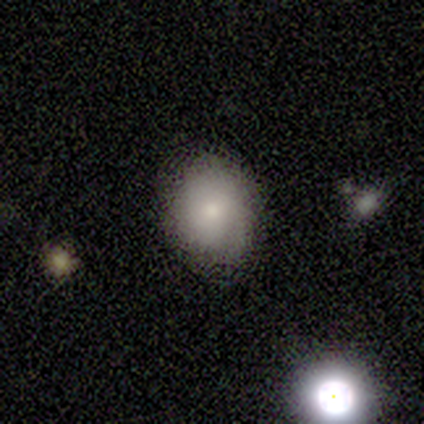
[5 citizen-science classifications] Q: Smooth or featured?
A: smooth (80%); runner-up: featured or disk (20%)
Q: How rounded?
A: round (50%); tied with: in between (50%)
Q: Merging?
A: none (40%); tied with: minor disturbance (40%)